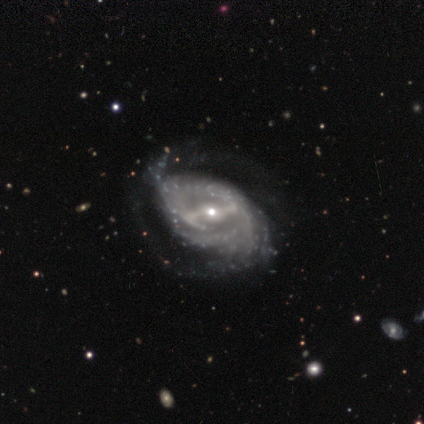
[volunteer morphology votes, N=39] A featured or disk galaxy (97%) with a strong bar (73%), tight (74%) spiral arms (92%) and a small central bulge (59%).

Vote fractions:
- Smooth or featured? featured or disk: 97% / star or artifact: 3% / smooth: 0%
- Edge-on disk? no: 97% / yes: 3%
- Bar? strong: 73% / weak: 24% / no: 3%
- Spiral arms? yes: 92% / no: 8%
- Spiral winding? tight: 74% / loose: 15% / medium: 12%
- Spiral arm count? can't tell: 50% / 2: 41% / 3: 6% / 4: 3% / 1: 0% / more than 4: 0%
- Bulge size? small: 59% / moderate: 35% / dominant: 3% / large: 3% / none: 0%
- Merging? none: 47% / major disturbance: 18% / minor disturbance: 5% / merger: 0%